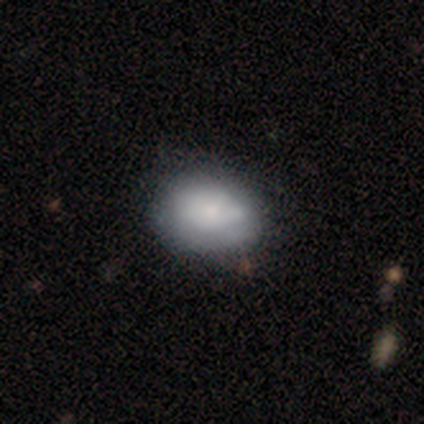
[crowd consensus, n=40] A smooth galaxy with no disk features (68%) that is in between round and cigar-shaped (63%).

Vote fractions:
- Smooth or featured? smooth: 68% / featured or disk: 30% / star or artifact: 2%
- How rounded? in between: 63% / round: 37% / cigar-shaped: 0%
- Merging? none: 59% / minor disturbance: 15% / merger: 5% / major disturbance: 3%